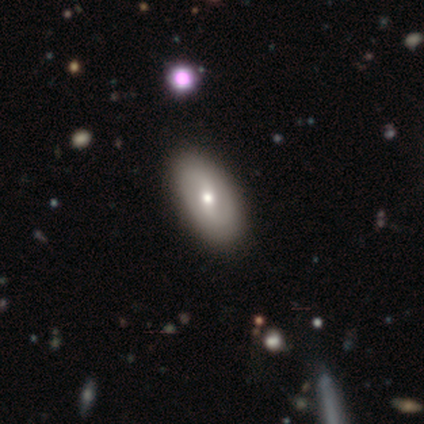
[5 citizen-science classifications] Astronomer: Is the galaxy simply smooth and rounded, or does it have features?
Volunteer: featured or disk — 60% (runner-up: smooth, 40%).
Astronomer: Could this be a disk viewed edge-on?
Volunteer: no — 100%.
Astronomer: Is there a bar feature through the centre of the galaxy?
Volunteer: weak — 67%.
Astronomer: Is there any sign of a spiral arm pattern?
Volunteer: yes — 100%.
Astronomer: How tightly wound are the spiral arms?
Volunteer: tight — 33%, tied with medium and loose at 33%.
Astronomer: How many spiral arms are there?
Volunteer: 2 — 67%.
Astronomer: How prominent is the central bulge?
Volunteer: moderate — 67%.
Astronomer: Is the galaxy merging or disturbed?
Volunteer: none — 100%.